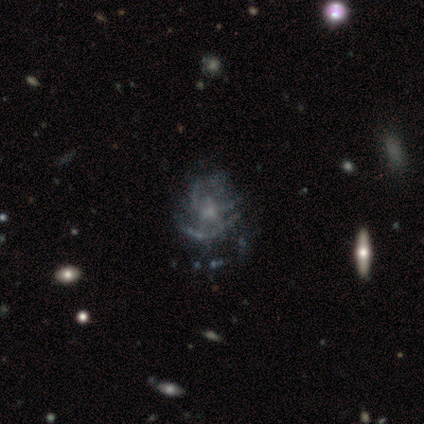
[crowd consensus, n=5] Smooth or featured: featured or disk — 100%
Edge-on disk: no — 100%
Bar: no — 80% (weak — 20%)
Spiral arms: no — 60% (yes — 40%)
Bulge size: small — 60% (none — 40%)
Merging: none — 60% (major disturbance — 20%)